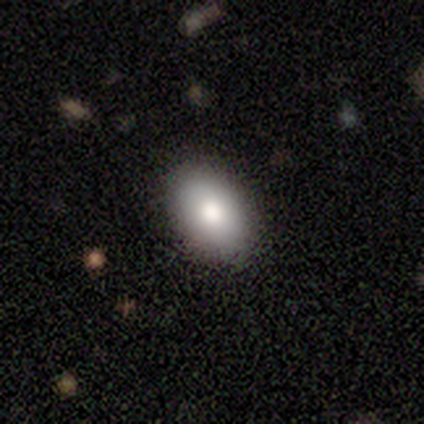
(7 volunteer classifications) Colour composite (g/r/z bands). It shows a smooth galaxy with no disk features (86%) that is in between round and cigar-shaped (100%). Merging: none (100%).